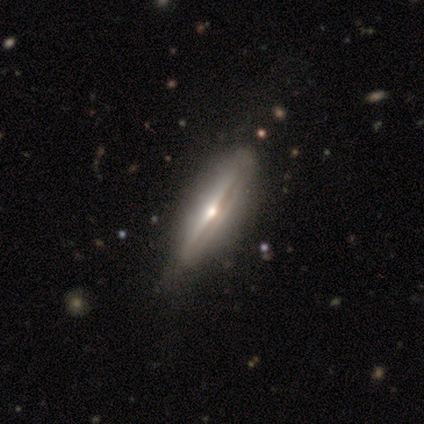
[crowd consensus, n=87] Overall: featured or disk (80%). Edge-on disk: yes (94%). Edge-on bulge: rounded (83%). Merging: none (78%).